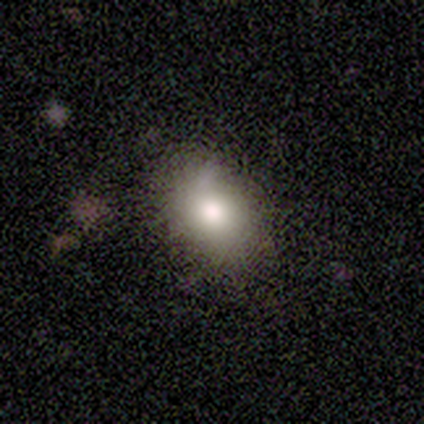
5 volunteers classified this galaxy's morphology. Smooth or featured? 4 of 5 (80%) said smooth. How rounded? 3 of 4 (75%) said in between. Merging? 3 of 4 (75%) said minor disturbance.